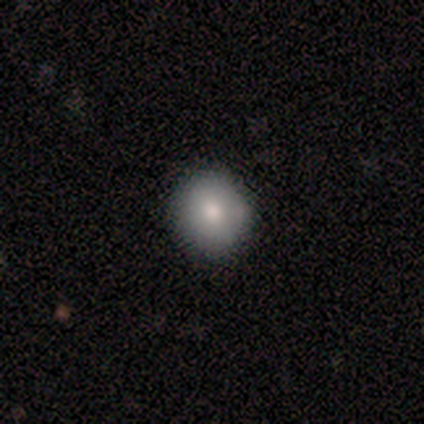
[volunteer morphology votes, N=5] Smooth or featured? 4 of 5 (80%) said smooth. How rounded? 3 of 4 (75%) said round. Merging? 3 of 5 (60%) said none.